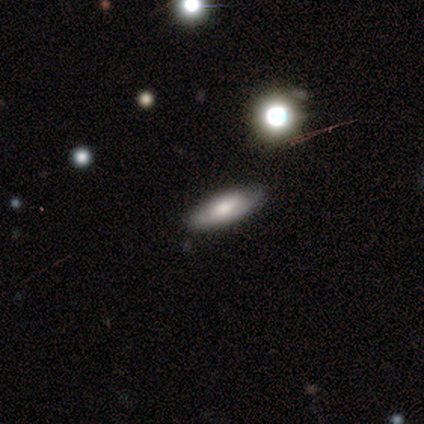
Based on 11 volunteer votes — Volunteers were most divided on "how rounded": in between: 57%, cigar-shaped: 43%, round: 0%. More confident: merging — none (73%); smooth or featured — smooth (64%).